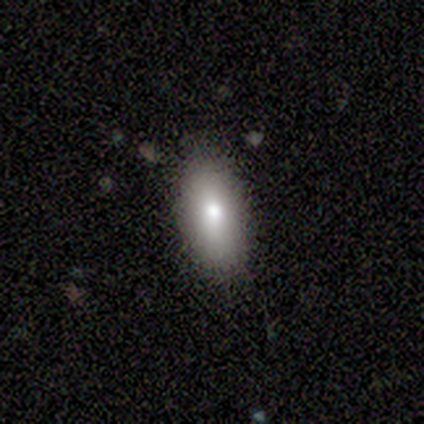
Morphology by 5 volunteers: Smooth or featured? 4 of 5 (80%) said smooth. How rounded? 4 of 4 (100%) said in between. Merging? 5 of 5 (100%) said none.